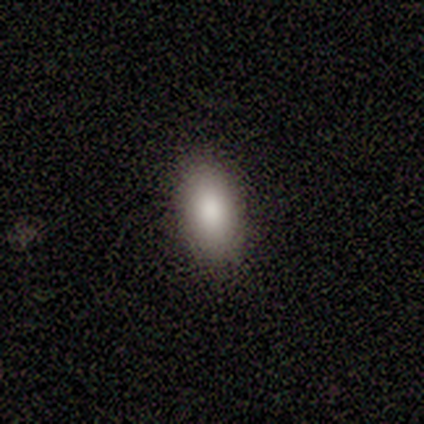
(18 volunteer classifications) Smooth or featured? 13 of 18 (72%) said smooth. How rounded? 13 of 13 (100%) said in between. Merging? 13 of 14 (93%) said none.